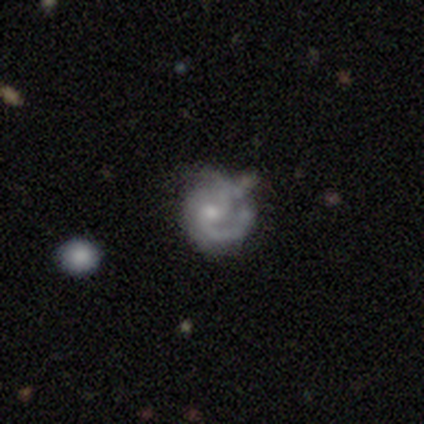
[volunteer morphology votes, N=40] Smooth or featured?
  - featured or disk: 90% *
  - smooth: 8%
  - star or artifact: 2%
Edge-on disk?
  - no: 97% *
  - yes: 3%
Bar?
  - no: 74% *
  - weak: 23%
  - strong: 3%
Spiral arms?
  - yes: 91% *
  - no: 9%
Spiral winding?
  - medium: 50% *
  - tight: 41%
  - loose: 9%
Spiral arm count?
  - 2: 56% *
  - 1: 16%
  - 3: 16%
  - can't tell: 12%
  - 4: 0%
  - more than 4: 0%
Bulge size?
  - small: 51% *
  - moderate: 43%
  - dominant: 3%
  - none: 3%
  - large: 0%
Merging?
  - none: 51% *
  - minor disturbance: 28%
  - major disturbance: 10%
  - merger: 10%